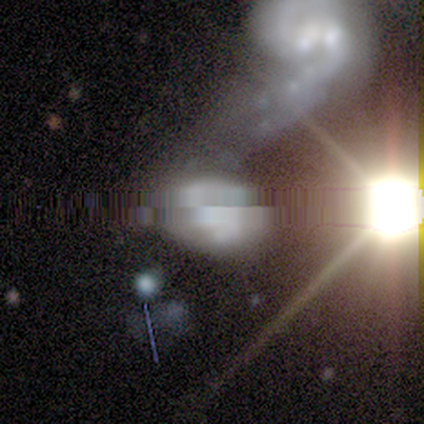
This appears to be a featured or disk galaxy (80%) with no bar (100%), 1 (50%, tied with can't tell) tight (50%, tied with medium) spiral arms (50%, tied with no) and a small central bulge (75%). Merging: merger (100%).